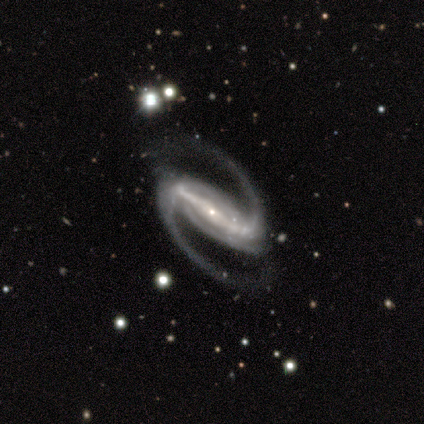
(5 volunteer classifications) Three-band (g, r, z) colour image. It shows a featured or disk galaxy (100%) with a strong bar (100%), 2 (100%) tight (40%, tied with medium) spiral arms (100%) and a small central bulge (100%). Merging: none (100%).